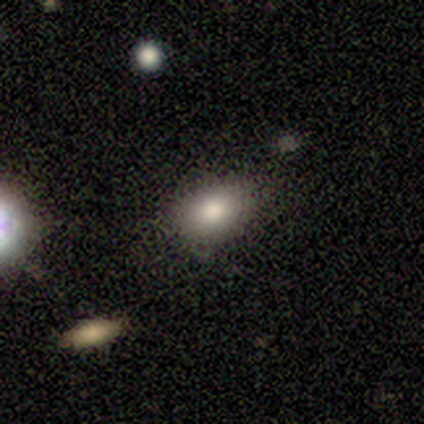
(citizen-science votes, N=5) smooth 80%, star or artifact 20%, featured or disk 0%. Down the decision tree: how rounded — in between (75%); merging — none (100%).